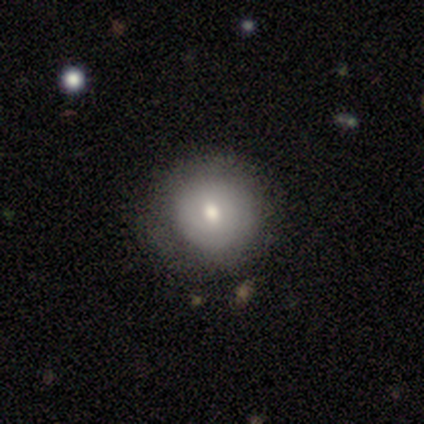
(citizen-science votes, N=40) Volunteers were most divided on "smooth or featured": smooth: 60%, featured or disk: 30%, star or artifact: 10%. More confident: how rounded — round (92%); merging — none (53%).